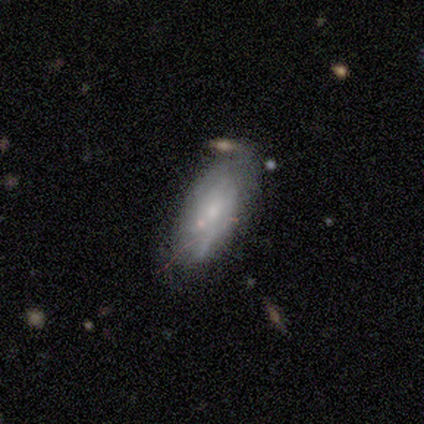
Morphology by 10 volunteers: featured or disk 80%, smooth 20%, star or artifact 0%. Down the decision tree: edge-on disk — no (75%); bar — no (83%); spiral arms — yes (50%, tied with no); spiral arm count — can't tell (100%); spiral winding — tight (67%); bulge size — small (100%); merging — none (60%).